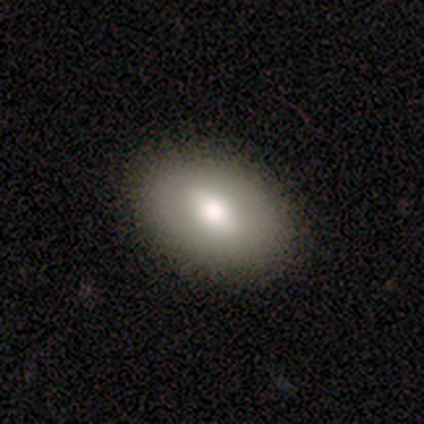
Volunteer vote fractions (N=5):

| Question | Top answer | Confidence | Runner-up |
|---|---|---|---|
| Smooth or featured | star or artifact | 60% | smooth (20%) |